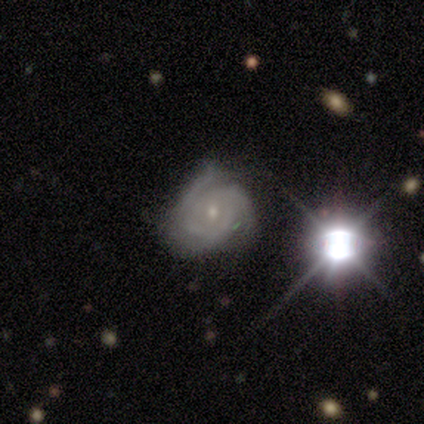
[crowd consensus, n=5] featured or disk 80%, star or artifact 20%, smooth 0%. Down the decision tree: edge-on disk — no (100%); bar — no (50%); spiral arms — yes (100%); spiral arm count — 3 (75%); spiral winding — tight (100%); bulge size — moderate (50%, tied with small); merging — none (75%).